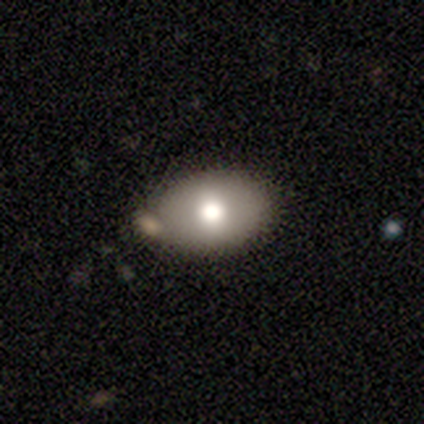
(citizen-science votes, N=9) Smooth or featured? 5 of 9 (56%) said smooth. How rounded? 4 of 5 (80%) said in between. Merging? 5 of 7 (71%) said none.